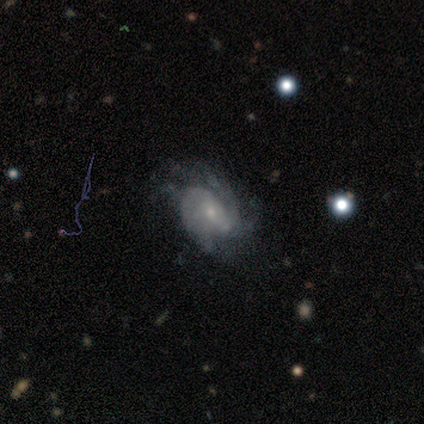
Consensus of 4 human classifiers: featured or disk 100%, smooth 0%, star or artifact 0%. Down the decision tree: edge-on disk — no (100%); bar — weak (50%); spiral arms — yes (100%); spiral arm count — 2 (50%); spiral winding — tight (50%); bulge size — small (75%); merging — none (50%).